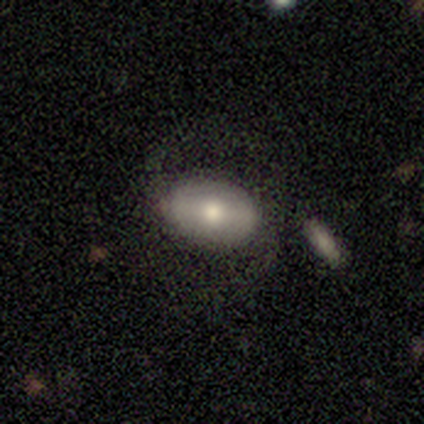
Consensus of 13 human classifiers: smooth_or_featured: smooth (p=0.46) [tied with: featured or disk p=0.46]
how_rounded: in between (p=0.83) [alt: round p=0.17]
merging: none (p=0.50) [alt: minor disturbance p=0.25]